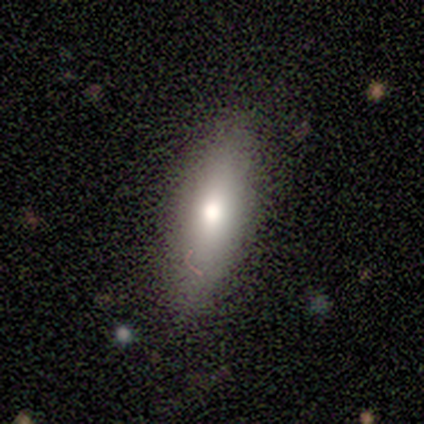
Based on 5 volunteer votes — Smooth or featured: smooth — 100%
How rounded: in between — 60% (round — 20%)
Merging: none — 80% (minor disturbance — 20%)